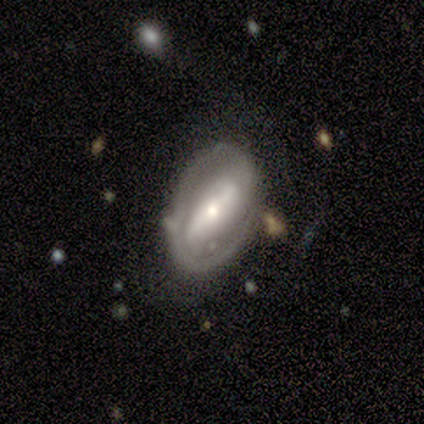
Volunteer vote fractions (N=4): Smooth or featured?
  - featured or disk: 75% *
  - star or artifact: 25%
  - smooth: 0%
Edge-on disk?
  - no: 100% *
  - yes: 0%
Bar?
  - strong: 33% * (tied)
  - weak: 33% * (tied)
  - no: 33% * (tied)
Spiral arms?
  - no: 67% *
  - yes: 33%
Bulge size?
  - small: 67% *
  - dominant: 33%
  - large: 0%
  - moderate: 0%
  - none: 0%
Merging?
  - none: 67% *
  - major disturbance: 33%
  - minor disturbance: 0%
  - merger: 0%